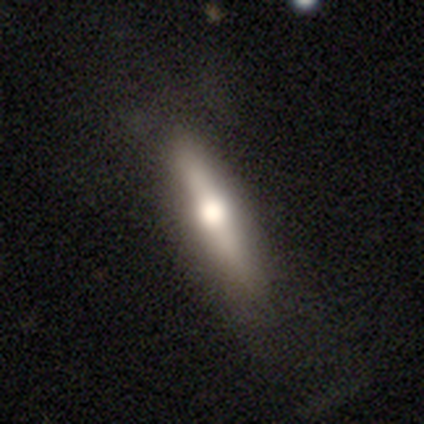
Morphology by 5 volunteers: featured or disk 60%, smooth 40%, star or artifact 0%. Down the decision tree: edge-on disk — yes (100%); edge-on bulge — rounded (100%); merging — none (80%).